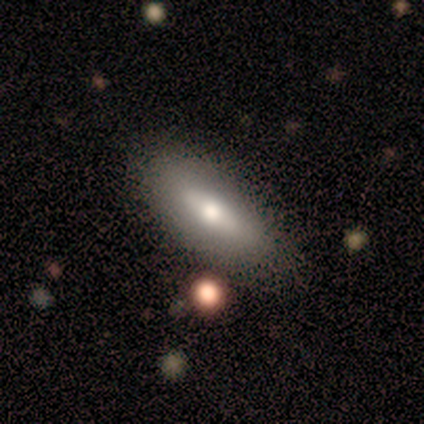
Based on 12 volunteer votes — Overall: smooth (58%; featured or disk 42%). How rounded: in between (86%). Merging: none (67%; minor disturbance 33%).